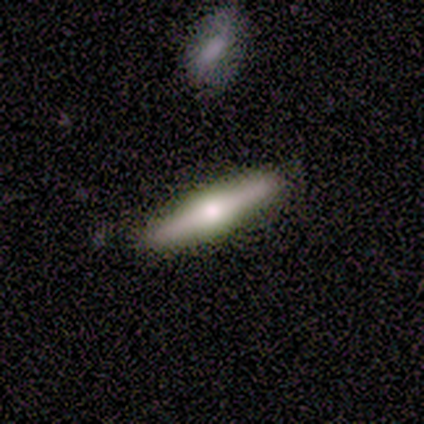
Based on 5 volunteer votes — Volunteers were most divided on "edge-on bulge": rounded: 67%, none: 33%, boxy: 0%. More confident: edge-on disk — yes (100%); merging — none (75%); smooth or featured — featured or disk (60%).